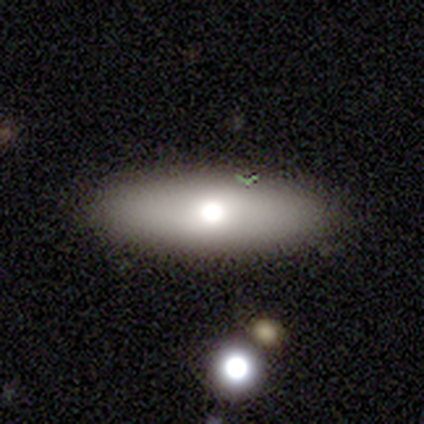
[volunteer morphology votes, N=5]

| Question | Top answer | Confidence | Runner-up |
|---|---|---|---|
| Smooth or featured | smooth | 60% | featured or disk (40%) |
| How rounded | in between | 67% | round (33%) |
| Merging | none | 80% | merger (20%) |